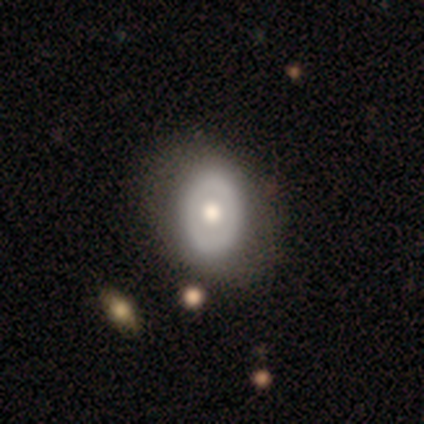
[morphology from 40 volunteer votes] Smooth or featured? 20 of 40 (50%) said smooth. How rounded? 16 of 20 (80%) said in between. Merging? 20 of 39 (51%) said none.